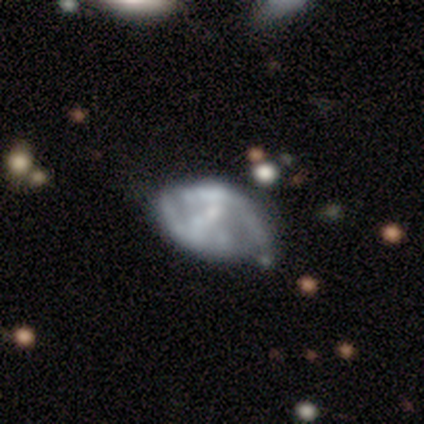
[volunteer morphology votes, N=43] featured or disk 72%, smooth 26%, star or artifact 2%. Down the decision tree: edge-on disk — no (97%); bar — no (63%); spiral arms — no (60%); bulge size — small (40%, tied with none); merging — none (45%).